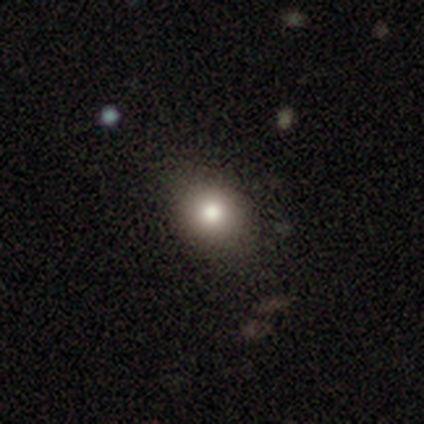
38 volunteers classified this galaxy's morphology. smooth 79%, featured or disk 13%, star or artifact 8%. Down the decision tree: how rounded — round (67%); merging — none (40%).